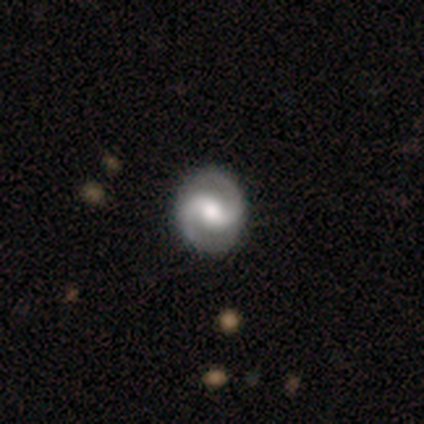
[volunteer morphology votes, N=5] Smooth or featured?
  - featured or disk: 100% *
  - smooth: 0%
  - star or artifact: 0%
Edge-on disk?
  - no: 100% *
  - yes: 0%
Bar?
  - strong: 60% *
  - no: 40%
  - weak: 0%
Spiral arms?
  - yes: 100% *
  - no: 0%
Spiral winding?
  - tight: 40% * (tied)
  - medium: 40% * (tied)
  - loose: 20%
Spiral arm count?
  - 2: 100% *
  - 1: 0%
  - 3: 0%
  - 4: 0%
  - more than 4: 0%
  - can't tell: 0%
Bulge size?
  - moderate: 60% *
  - large: 40%
  - dominant: 0%
  - small: 0%
  - none: 0%
Merging?
  - none: 100% *
  - minor disturbance: 0%
  - major disturbance: 0%
  - merger: 0%